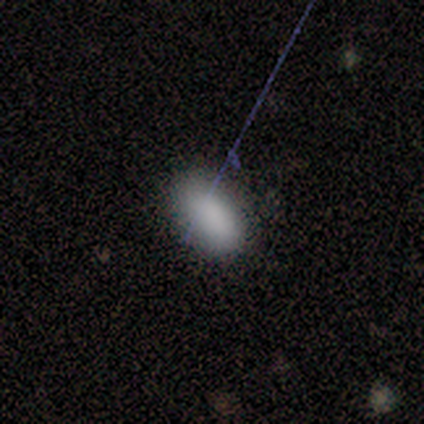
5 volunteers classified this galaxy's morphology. Volunteers were most divided on "merging": none: 80%, minor disturbance: 20%, major disturbance: 0%, merger: 0%. More confident: smooth or featured — smooth (100%); how rounded — in between (100%).